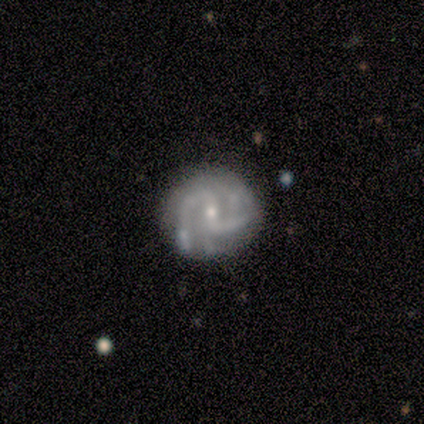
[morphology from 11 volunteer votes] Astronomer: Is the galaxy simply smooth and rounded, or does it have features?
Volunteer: featured or disk — 100%.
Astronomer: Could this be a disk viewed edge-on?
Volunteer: no — 100%.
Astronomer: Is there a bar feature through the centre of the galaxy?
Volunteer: weak — 45% (runner-up: no, 36%).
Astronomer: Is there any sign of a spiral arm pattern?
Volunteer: yes — 100%.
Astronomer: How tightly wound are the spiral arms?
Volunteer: tight — 55% (runner-up: medium, 36%).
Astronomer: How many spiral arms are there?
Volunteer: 2 — 55%.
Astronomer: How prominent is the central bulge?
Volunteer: small — 91%.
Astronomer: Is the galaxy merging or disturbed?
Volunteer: none — 82%.